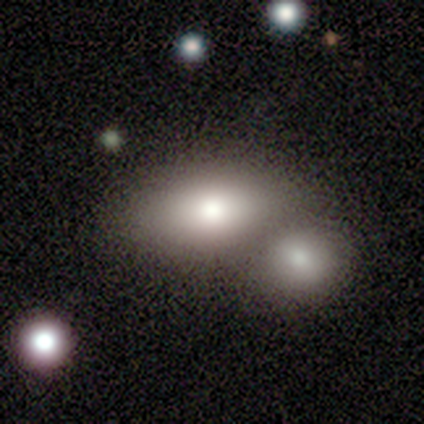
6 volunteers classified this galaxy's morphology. type=smooth (67%); roundness=in between (100%); merging=none (50%, tied with merger).